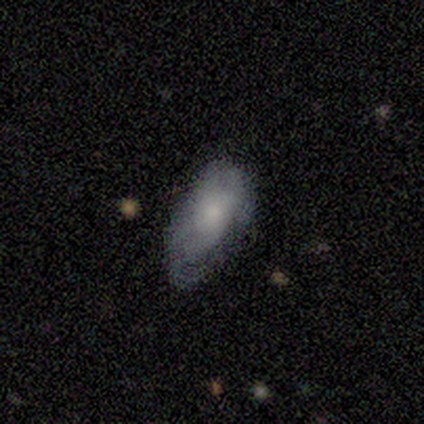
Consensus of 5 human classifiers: A smooth galaxy with no disk features (80%) that is in between round and cigar-shaped (100%). Merging: minor disturbance (60%).